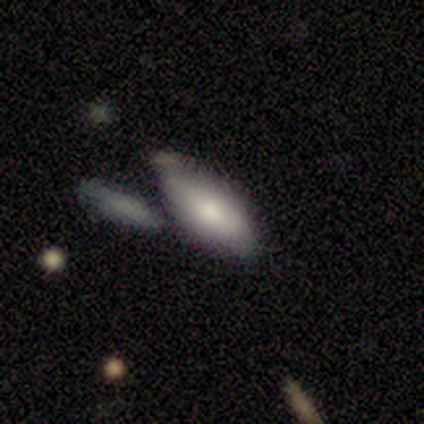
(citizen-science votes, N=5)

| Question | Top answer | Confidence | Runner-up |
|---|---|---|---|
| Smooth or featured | smooth | 100% | — |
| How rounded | in between | 60% | round (20%) |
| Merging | none | 60% | minor disturbance (20%) |